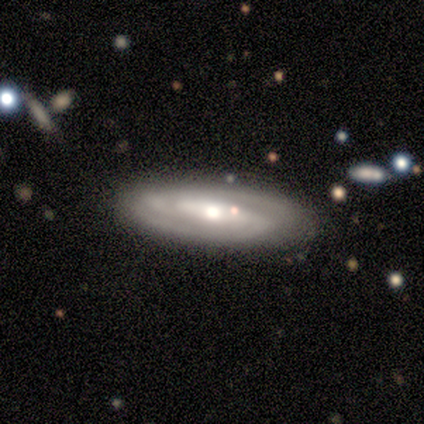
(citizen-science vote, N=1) featured or disk 100%, smooth 0%, star or artifact 0%. Down the decision tree: edge-on disk — no (100%); bar — strong (100%); spiral arms — yes (100%); spiral arm count — 2 (100%); spiral winding — medium (100%); bulge size — large (100%); merging — none (100%).